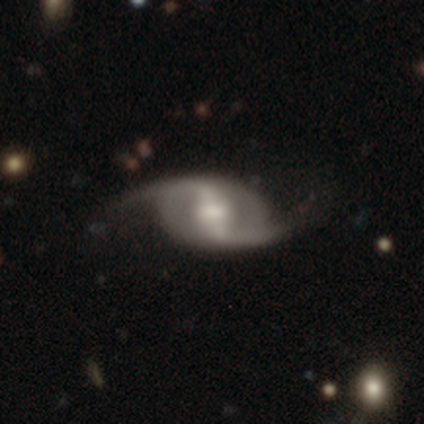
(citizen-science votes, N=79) A featured or disk galaxy (90%) with a strong bar (72%), 2 (97%) loose (75%) spiral arms (96%) and a moderate central bulge (63%). Merging: none (46%).